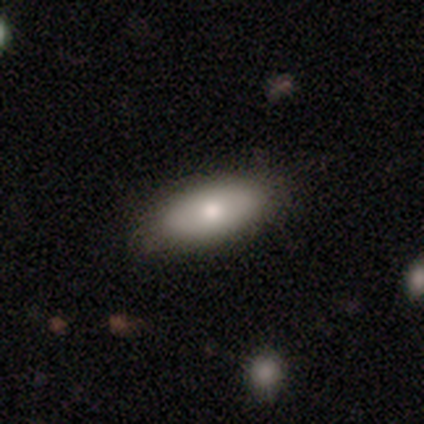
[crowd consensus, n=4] Q: Smooth or featured?
A: smooth (50%); tied with: featured or disk (50%)
Q: How rounded?
A: in between (100%)
Q: Merging?
A: none (100%)